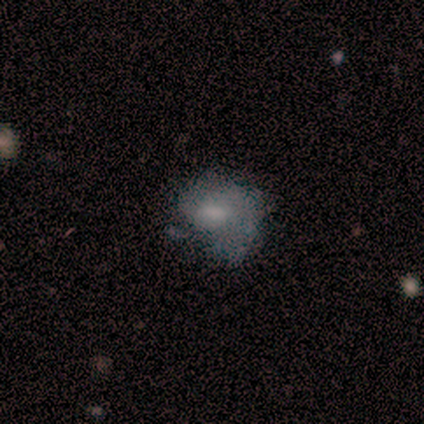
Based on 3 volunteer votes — smooth_or_featured: smooth (p=0.67) [alt: star or artifact p=0.33]
how_rounded: in between (p=1.00)
merging: none (p=0.50) [tied with: major disturbance p=0.50]